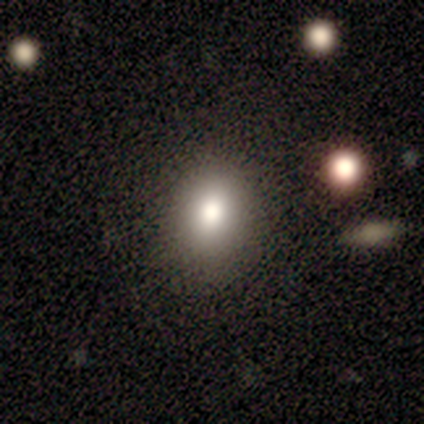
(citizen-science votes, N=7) smooth_or_featured: smooth (p=1.00)
how_rounded: round (p=0.71) [alt: in between p=0.29]
merging: none (p=1.00)